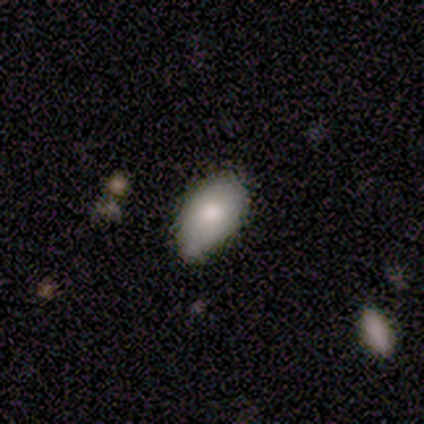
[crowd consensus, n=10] A smooth galaxy with no disk features (80%) that is in between round and cigar-shaped (100%).

Vote fractions:
- Smooth or featured? smooth: 80% / featured or disk: 20% / star or artifact: 0%
- How rounded? in between: 100% / round: 0% / cigar-shaped: 0%
- Merging? none: 70% / minor disturbance: 30% / major disturbance: 0% / merger: 0%